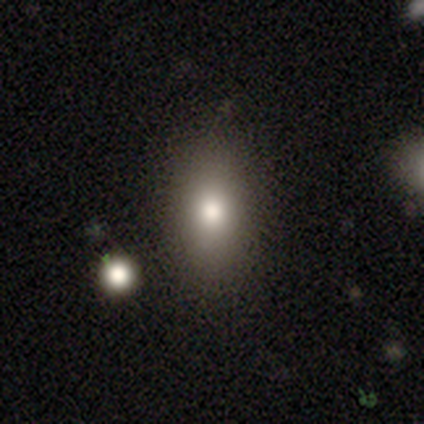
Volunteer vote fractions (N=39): smooth_or_featured: smooth (p=0.79) [alt: star or artifact p=0.13]
how_rounded: in between (p=0.77) [alt: cigar-shaped p=0.13]
merging: none (p=0.82) [alt: minor disturbance p=0.18]